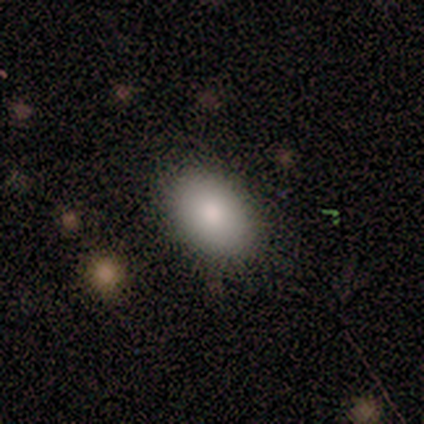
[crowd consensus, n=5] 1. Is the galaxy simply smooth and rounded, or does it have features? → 100% smooth, 0% featured or disk, 0% star or artifact.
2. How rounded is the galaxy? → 100% in between, 0% round, 0% cigar-shaped.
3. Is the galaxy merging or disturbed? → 80% none, 20% major disturbance, 0% minor disturbance, 0% merger.